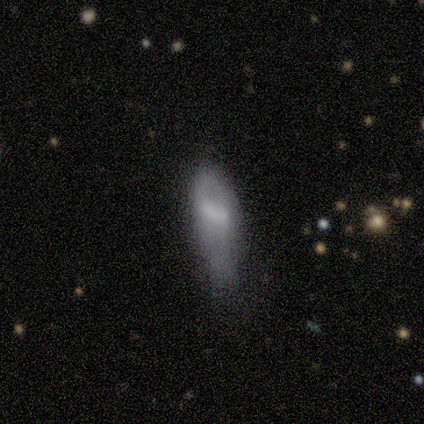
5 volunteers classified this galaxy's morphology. A smooth galaxy with no disk features (40%, tied with star or artifact) that is in between round and cigar-shaped (50%, tied with cigar-shaped). Merging: minor disturbance (100%).